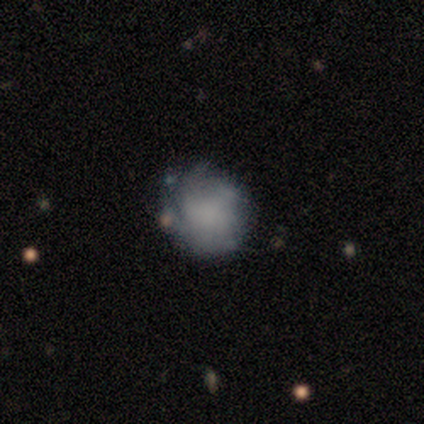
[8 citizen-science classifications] Morphology: type=smooth (75%); roundness=round (67%); merging=none (75%).